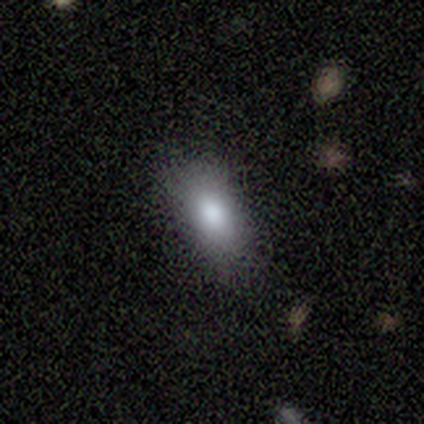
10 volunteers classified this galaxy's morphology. Smooth or featured? 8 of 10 (80%) said smooth. How rounded? 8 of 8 (100%) said in between. Merging? 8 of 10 (80%) said none.